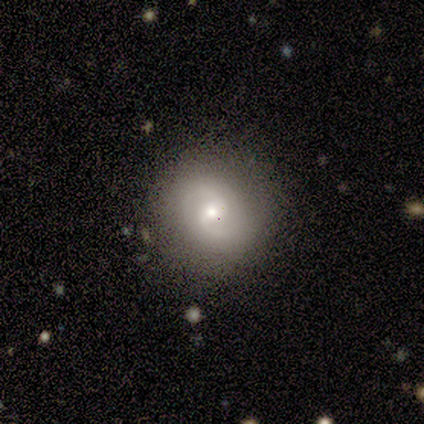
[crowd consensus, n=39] This appears to be a featured or disk galaxy (56%) with a weak bar (55%), 2 (82%) medium (55%) spiral arms (100%) and a moderate central bulge (59%). Merging: none (78%).